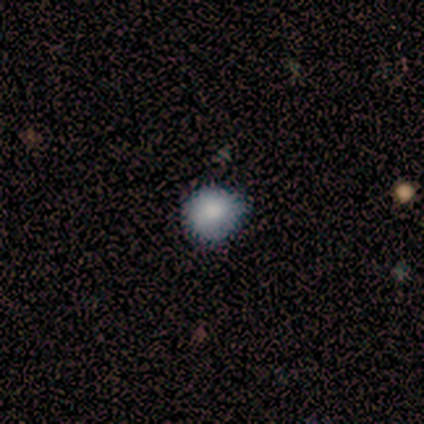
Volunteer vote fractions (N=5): Volunteers were most divided on "how rounded": round: 75%, in between: 25%, cigar-shaped: 0%. More confident: smooth or featured — smooth (80%); merging — none (75%).